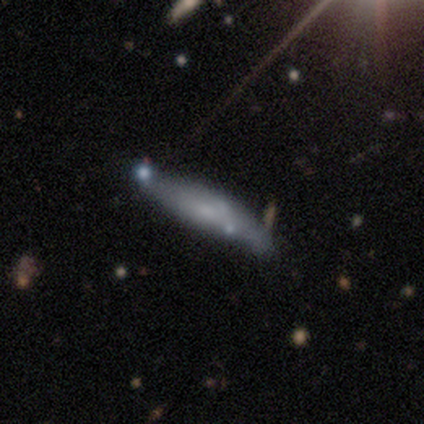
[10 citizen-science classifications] Morphology: type=smooth (60%); roundness=cigar-shaped (100%); merging=none (50%).